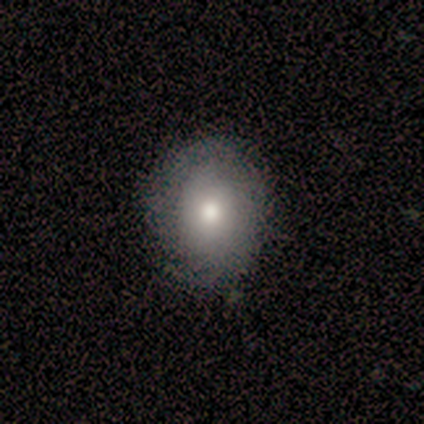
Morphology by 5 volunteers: type=smooth (80%); roundness=round (100%); merging=none (80%).